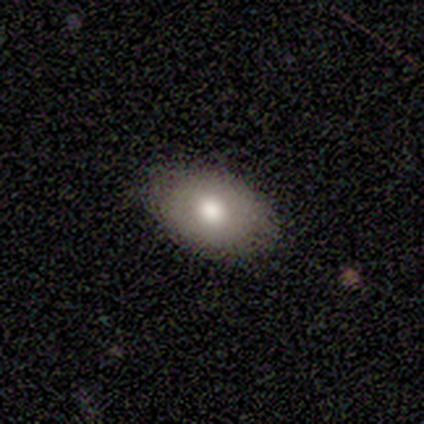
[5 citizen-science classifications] Morphology: type=smooth (100%); roundness=in between (80%); merging=none (100%).